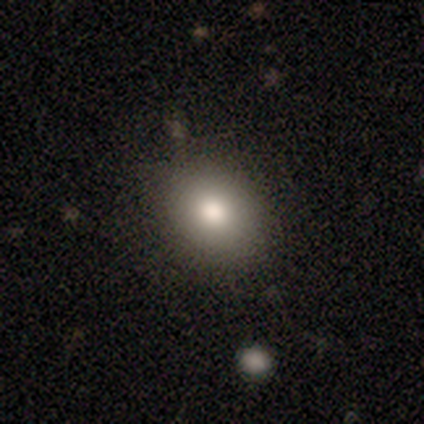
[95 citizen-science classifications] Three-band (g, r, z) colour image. It shows a smooth galaxy with no disk features (83%) that is in between round and cigar-shaped (51%). Merging: none (84%).